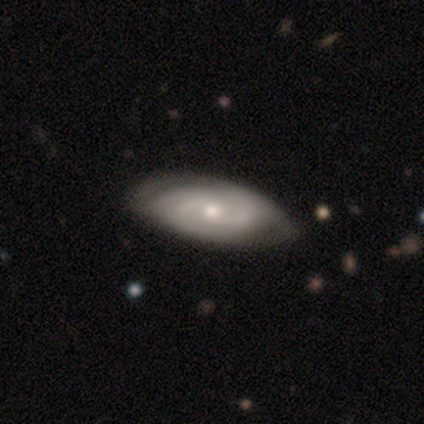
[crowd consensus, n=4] Overall: featured or disk (75%). Edge-on disk: no (100%). Bar: no (100%). Spiral arms: yes (67%; no 33%). Spiral arm count: 2 (50%, tied with can't tell). Spiral winding: tight (50%, tied with medium). Bulge size: small (100%). Merging: none (100%).